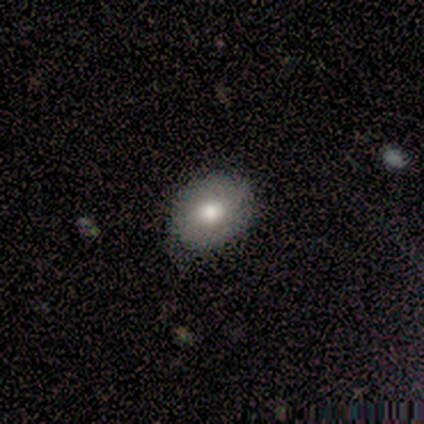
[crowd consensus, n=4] Overall: smooth (50%, tied with featured or disk). How rounded: round (50%, tied with in between). Merging: none (50%, tied with minor disturbance).